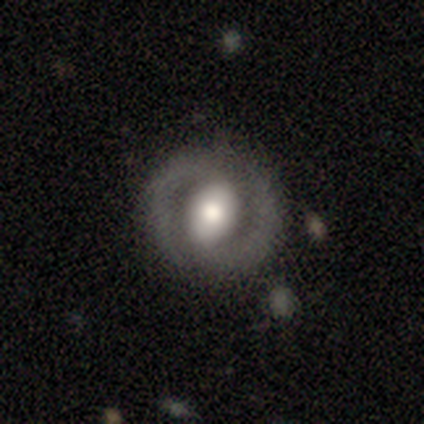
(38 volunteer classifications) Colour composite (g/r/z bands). It shows a featured or disk galaxy (79%) with no bar (43%), 2 (96%) medium (50%) spiral arms (86%) and a moderate central bulge (54%). Merging: none (80%).